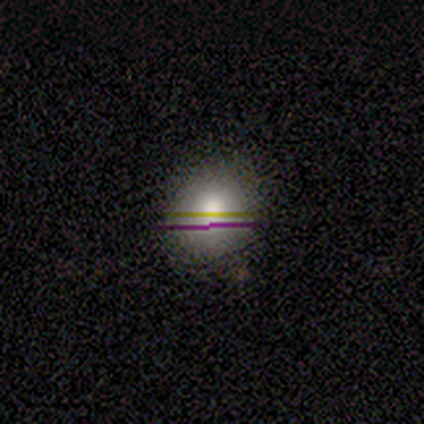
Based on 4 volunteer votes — smooth-or-featured: smooth: 100% | featured or disk: 0% | star or artifact: 0%
  how-rounded: round: 50% (tied) | in between: 50% (tied) | cigar-shaped: 0%
  merging: none: 50% (tied) | minor disturbance: 50% (tied) | major disturbance: 0% | merger: 0%